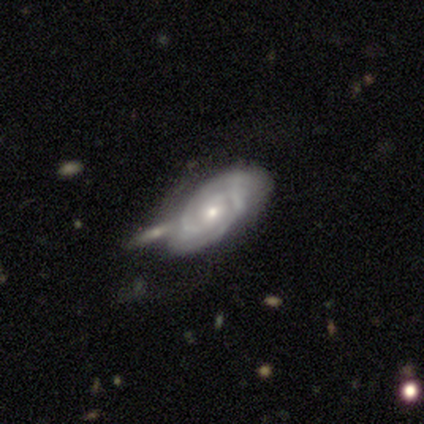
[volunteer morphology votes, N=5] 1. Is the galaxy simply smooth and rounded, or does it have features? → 100% featured or disk, 0% smooth, 0% star or artifact.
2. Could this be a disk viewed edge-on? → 100% no, 0% yes.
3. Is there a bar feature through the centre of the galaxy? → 100% no, 0% strong, 0% weak.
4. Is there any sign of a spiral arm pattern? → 80% yes, 20% no.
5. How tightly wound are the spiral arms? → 100% tight, 0% medium, 0% loose.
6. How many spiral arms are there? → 100% 2, 0% 1, 0% 3, 0% 4, 0% more than 4, 0% can't tell.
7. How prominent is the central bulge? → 60% small, 20% moderate, 20% none, 0% dominant, 0% large.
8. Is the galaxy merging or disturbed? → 80% none, 20% minor disturbance, 0% major disturbance, 0% merger.